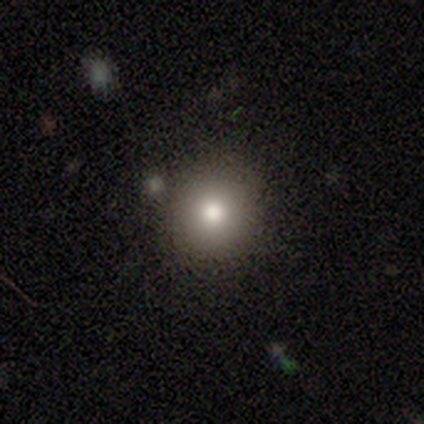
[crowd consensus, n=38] Overall: smooth (71%). How rounded: round (100%). Merging: none (83%).